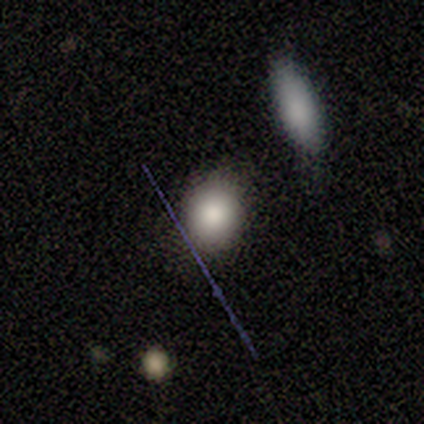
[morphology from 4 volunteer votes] This is clearly a smooth galaxy (100%). How rounded: possibly round (50%, tied with in between). Merging: likely none (75%).